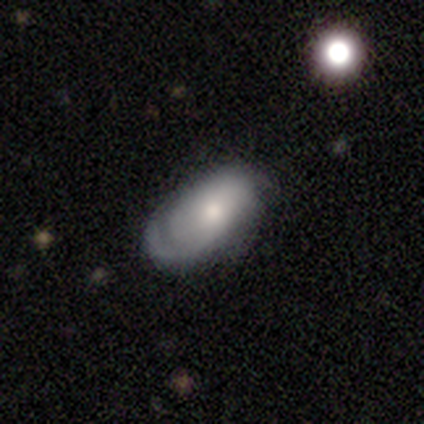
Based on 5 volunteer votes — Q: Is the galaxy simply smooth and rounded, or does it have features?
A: featured or disk — 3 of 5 (60%).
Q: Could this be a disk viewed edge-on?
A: no — 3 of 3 (100%).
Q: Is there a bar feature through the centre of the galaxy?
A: no — 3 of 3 (100%).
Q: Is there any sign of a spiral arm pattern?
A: no — 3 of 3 (100%).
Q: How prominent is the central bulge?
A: small — 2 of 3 (67%).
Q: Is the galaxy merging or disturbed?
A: none — 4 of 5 (80%).